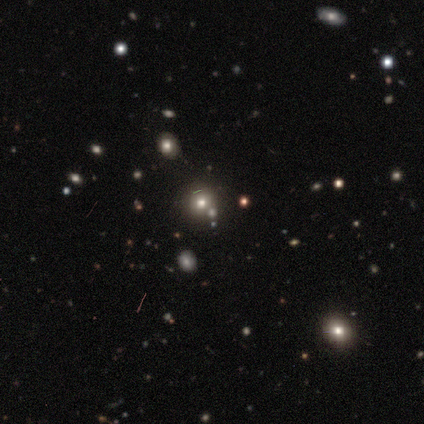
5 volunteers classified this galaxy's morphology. Smooth or featured: star or artifact — 60% (smooth — 40%)